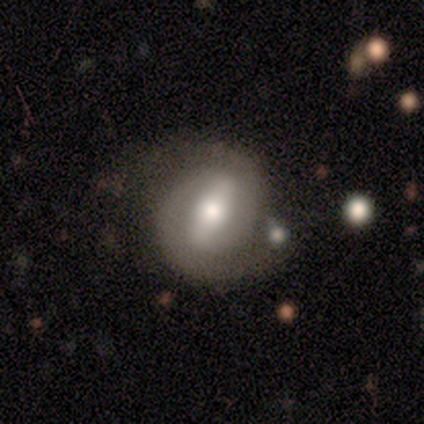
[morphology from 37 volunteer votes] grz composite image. It shows a featured or disk galaxy (78%) with a strong bar (63%), 2 (92%) tight (54%) spiral arms (96%) and a moderate central bulge (59%). Merging: none (61%).